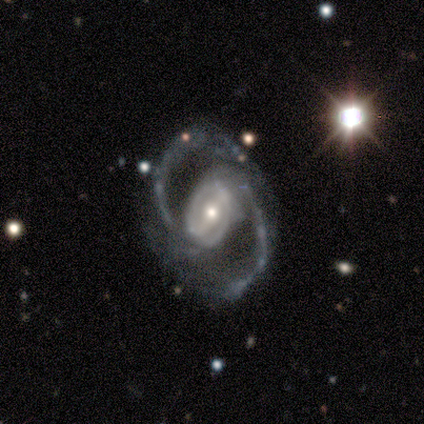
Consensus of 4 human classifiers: smooth_or_featured: featured or disk (p=1.00)
disk_edge_on: no (p=0.75) [alt: yes p=0.25]
bar: no (p=0.67) [alt: weak p=0.33]
has_spiral_arms: yes (p=1.00)
spiral_winding: medium (p=1.00)
spiral_arm_count: 2 (p=1.00)
bulge_size: large (p=0.33) [tied with: moderate p=0.33, small p=0.33]
merging: none (p=0.75) [alt: major disturbance p=0.25]